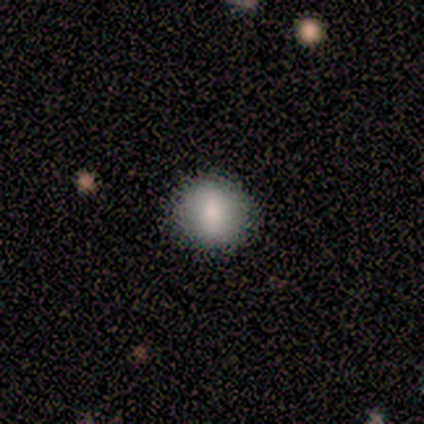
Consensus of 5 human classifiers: Volunteers were most divided on "smooth or featured": smooth: 80%, featured or disk: 20%, star or artifact: 0%. More confident: how rounded — round (100%); merging — none (80%).